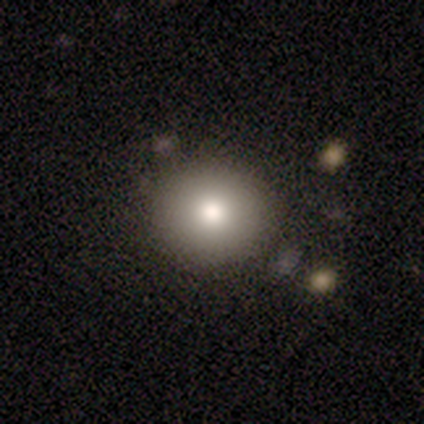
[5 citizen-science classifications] Volunteers were most divided on "how rounded": round: 80%, in between: 20%, cigar-shaped: 0%. More confident: smooth or featured — smooth (100%); merging — none (100%).